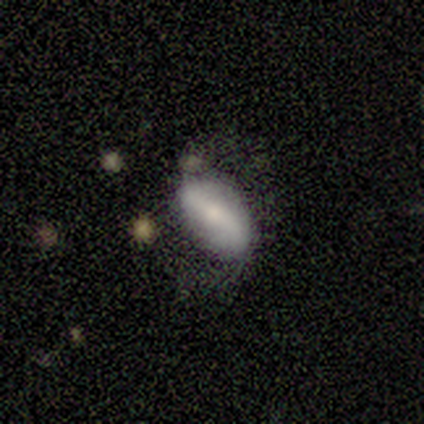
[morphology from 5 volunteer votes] type=smooth (60%); roundness=in between (100%); merging=none (60%).